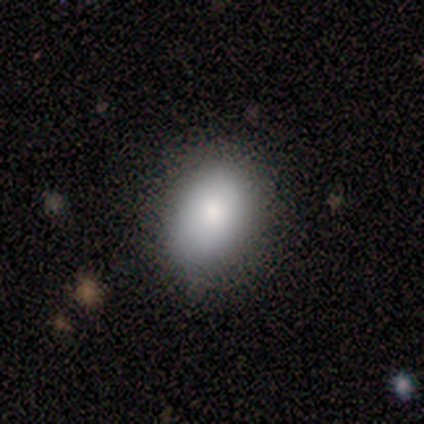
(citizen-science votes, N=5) This is clearly a smooth galaxy (80%). How rounded: clearly in between (100%). Merging: clearly none (100%).